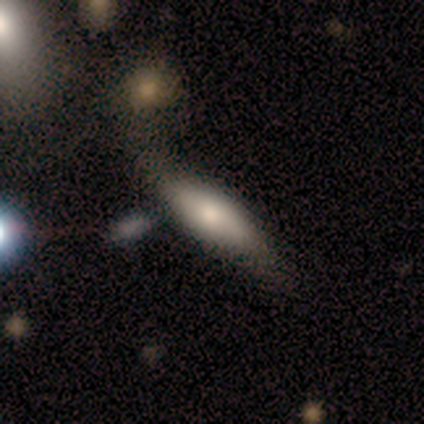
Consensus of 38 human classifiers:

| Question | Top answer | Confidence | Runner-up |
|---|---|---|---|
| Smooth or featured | smooth | 71% | featured or disk (26%) |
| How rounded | cigar-shaped | 63% | in between (33%) |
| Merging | none | 73% | minor disturbance (22%) |